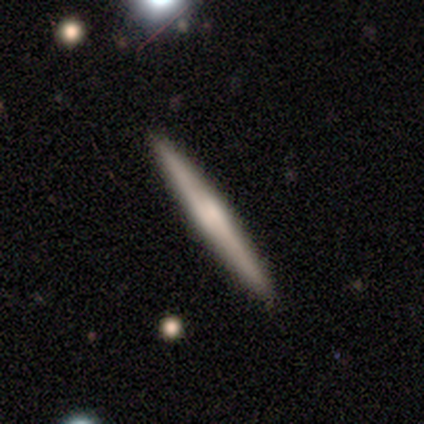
Q: Smooth or featured?
A: featured or disk (62%); runner-up: smooth (25%)
Q: Edge-on disk?
A: yes (100%)
Q: Edge-on bulge?
A: boxy (40%); tied with: none (40%)
Q: Merging?
A: none (100%)